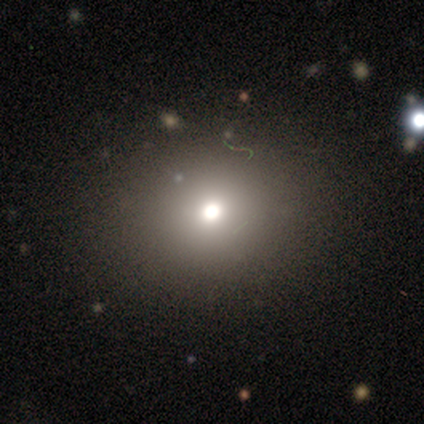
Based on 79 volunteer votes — smooth 68%, star or artifact 19%, featured or disk 13%. Down the decision tree: how rounded — round (83%); merging — none (48%).